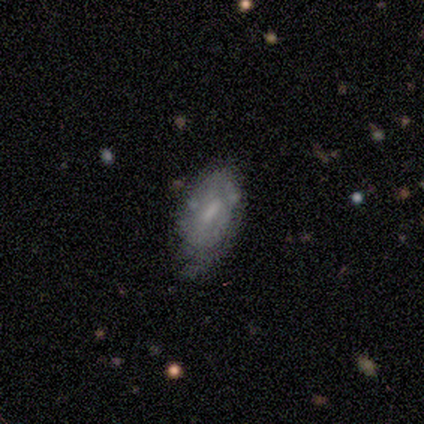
This is possibly a featured or disk galaxy (55%). It is clearly not viewed edge-on (100%). Bar: likely weak (68%). Spiral arm pattern: possibly no (57%). Central bulge: marginally small (43%). Merging: marginally none (41%).